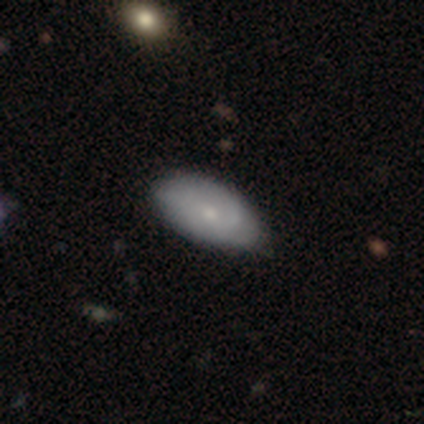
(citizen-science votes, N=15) Q: Smooth or featured?
A: featured or disk (60%); runner-up: smooth (40%)
Q: Edge-on disk?
A: no (89%); runner-up: yes (11%)
Q: Bar?
A: no (75%); runner-up: weak (25%)
Q: Spiral arms?
A: no (62%); runner-up: yes (38%)
Q: Bulge size?
A: moderate (50%); tied with: small (50%)
Q: Merging?
A: none (60%); runner-up: minor disturbance (40%)